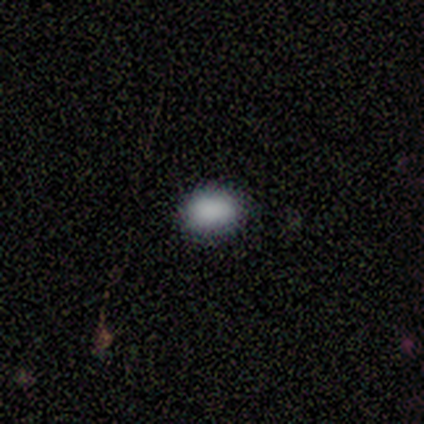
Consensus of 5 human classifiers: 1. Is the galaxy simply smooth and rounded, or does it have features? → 100% smooth, 0% featured or disk, 0% star or artifact.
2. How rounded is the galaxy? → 60% in between, 20% round, 20% cigar-shaped.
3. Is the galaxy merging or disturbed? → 100% none, 0% minor disturbance, 0% major disturbance, 0% merger.